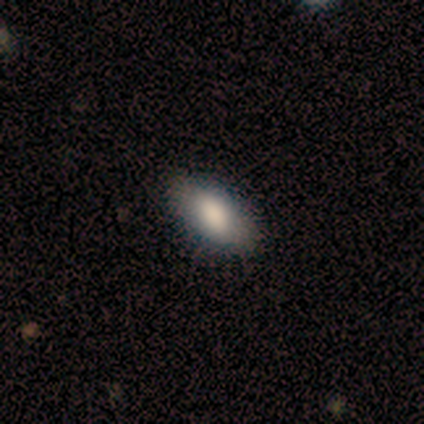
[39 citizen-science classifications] A smooth galaxy with no disk features (77%) that is in between round and cigar-shaped (93%).

Vote fractions:
- Smooth or featured? smooth: 77% / featured or disk: 18% / star or artifact: 5%
- How rounded? in between: 93% / round: 3% / cigar-shaped: 3%
- Merging? none: 95% / minor disturbance: 3% / merger: 3% / major disturbance: 0%